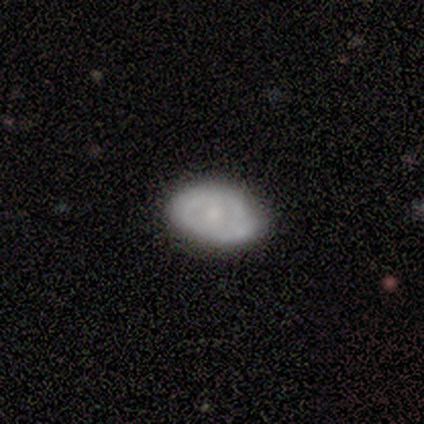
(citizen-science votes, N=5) Smooth or featured? 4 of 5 (80%) said featured or disk. Edge-on disk? 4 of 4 (100%) said no. Bar? 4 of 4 (100%) said no. Spiral arms? 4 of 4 (100%) said no. Bulge size? 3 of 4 (75%) said moderate. Merging? 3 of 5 (60%) said minor disturbance.